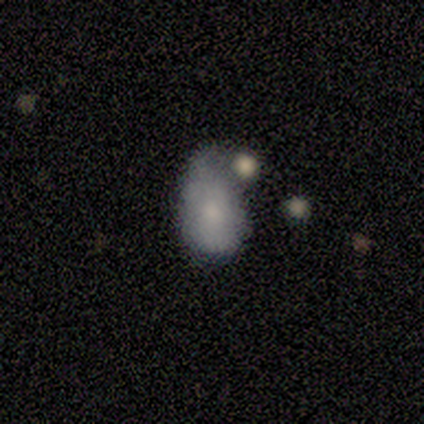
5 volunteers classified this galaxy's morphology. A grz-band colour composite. It shows a smooth galaxy with no disk features (80%) that is in between round and cigar-shaped (75%). Merging: merger (40%).